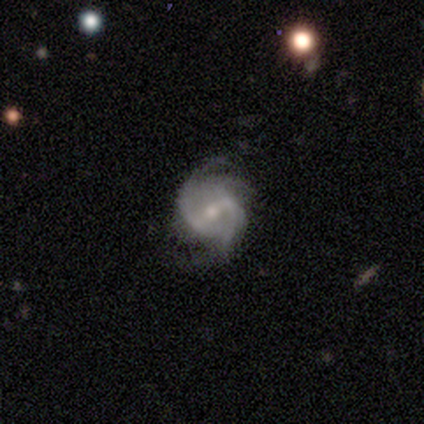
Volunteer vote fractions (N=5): Smooth or featured? 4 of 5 (80%) said featured or disk. Edge-on disk? 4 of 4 (100%) said no. Bar? 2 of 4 (50%) said no. Spiral arms? 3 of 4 (75%) said yes. Spiral winding? 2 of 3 (67%) said medium. Spiral arm count? 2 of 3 (67%) said 2. Bulge size? 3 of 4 (75%) said small. Merging? 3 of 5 (60%) said none.